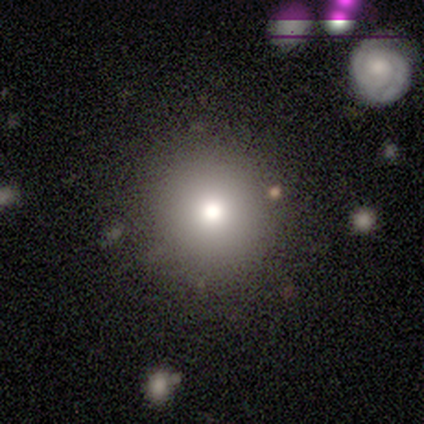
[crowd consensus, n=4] smooth_or_featured: smooth (p=0.50) [alt: featured or disk p=0.25]
how_rounded: round (p=1.00)
merging: none (p=1.00)